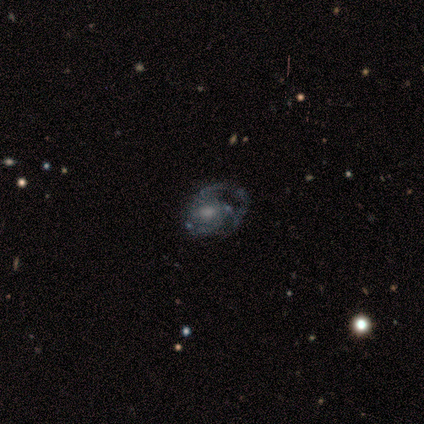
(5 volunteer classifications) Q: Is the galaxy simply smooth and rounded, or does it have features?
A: featured or disk — 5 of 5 (100%).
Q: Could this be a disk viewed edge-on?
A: no — 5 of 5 (100%).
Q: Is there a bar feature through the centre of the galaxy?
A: no — 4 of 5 (80%).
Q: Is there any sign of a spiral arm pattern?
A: yes — 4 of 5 (80%).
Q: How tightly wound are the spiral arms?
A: loose — 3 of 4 (75%).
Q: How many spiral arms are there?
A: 1 — 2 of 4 (50%, tied with 2).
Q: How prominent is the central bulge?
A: dominant — 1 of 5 (20%, tied with large, moderate, small and none).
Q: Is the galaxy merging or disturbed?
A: none — 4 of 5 (80%).